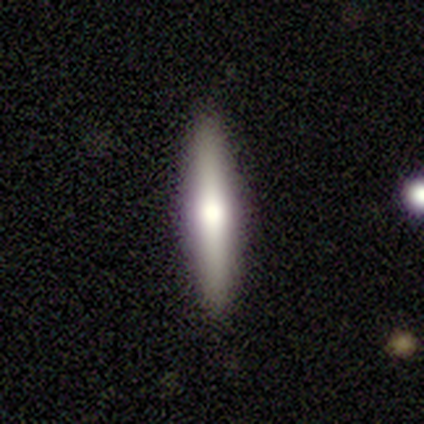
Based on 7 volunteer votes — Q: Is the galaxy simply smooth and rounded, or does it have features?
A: featured or disk — 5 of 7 (71%).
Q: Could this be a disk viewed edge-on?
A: yes — 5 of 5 (100%).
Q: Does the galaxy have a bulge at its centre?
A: rounded — 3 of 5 (60%).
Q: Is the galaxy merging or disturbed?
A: none — 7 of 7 (100%).